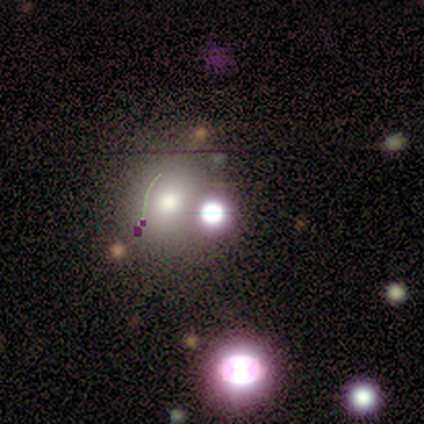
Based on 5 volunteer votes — smooth_or_featured: featured or disk (p=0.40) [tied with: star or artifact p=0.40]
disk_edge_on: no (p=1.00)
bar: no (p=1.00)
has_spiral_arms: no (p=1.00)
bulge_size: dominant (p=0.50) [tied with: large p=0.50]
merging: merger (p=0.67) [alt: none p=0.33]